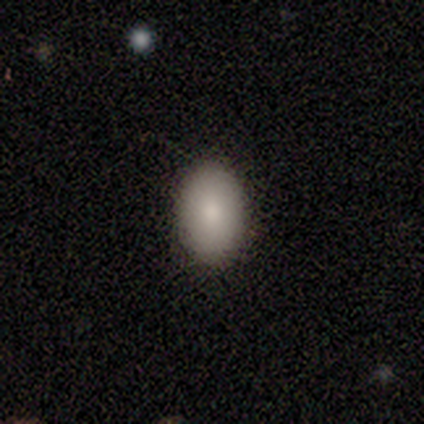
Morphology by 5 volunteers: A smooth galaxy with no disk features (100%) that is in between round and cigar-shaped (60%).

Vote fractions:
- Smooth or featured? smooth: 100% / featured or disk: 0% / star or artifact: 0%
- How rounded? in between: 60% / round: 40% / cigar-shaped: 0%
- Merging? none: 100% / minor disturbance: 0% / major disturbance: 0% / merger: 0%